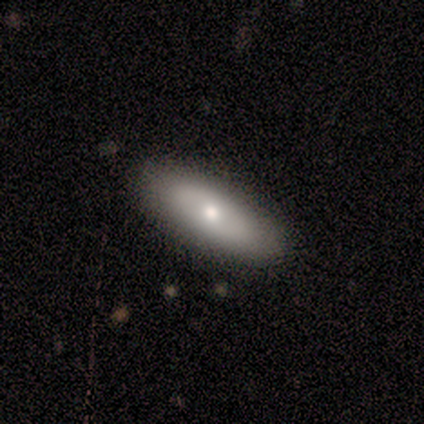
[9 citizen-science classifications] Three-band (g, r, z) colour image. It shows a smooth galaxy with no disk features (78%) that is in between round and cigar-shaped (57%). Merging: none (67%).